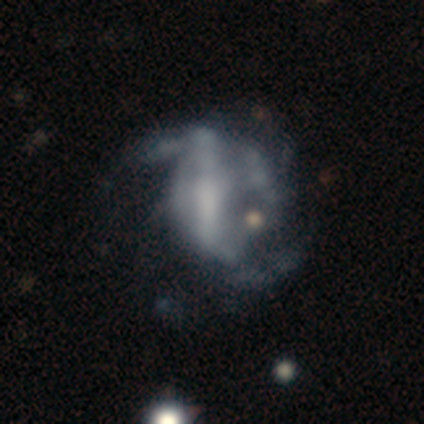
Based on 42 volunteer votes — smooth-or-featured: featured or disk: 69% | smooth: 17% | star or artifact: 14%
  disk-edge-on: no: 93% | yes: 7%
    bar: strong: 52% | no: 41% | weak: 7%
    has-spiral-arms: yes: 70% | no: 30%
      spiral-winding: loose: 47% | medium: 37% | tight: 16%
      spiral-arm-count: can't tell: 53% | 2: 37% | 3: 5% | more than 4: 5% | 1: 0% | 4: 0%
    bulge-size: none: 44% | moderate: 37% | small: 15% | large: 4% | dominant: 0%
  merging: major disturbance: 47% | none: 25% | minor disturbance: 19% | merger: 8%